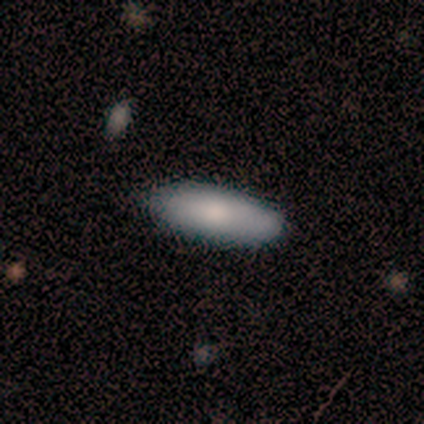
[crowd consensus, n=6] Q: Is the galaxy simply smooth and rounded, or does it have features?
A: smooth — 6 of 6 (100%).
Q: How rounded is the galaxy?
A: in between — 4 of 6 (67%).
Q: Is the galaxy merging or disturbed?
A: none — 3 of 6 (50%).